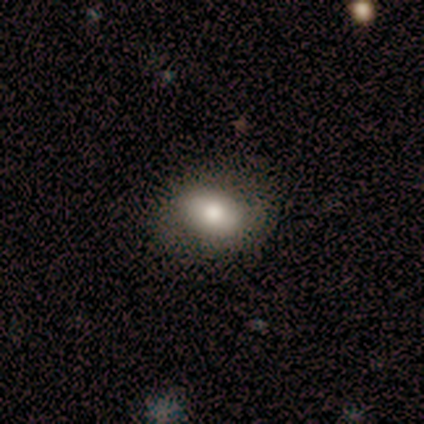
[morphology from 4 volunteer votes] smooth_or_featured: smooth (p=0.50) [alt: featured or disk p=0.25]
how_rounded: round (p=0.50) [tied with: in between p=0.50]
merging: none (p=1.00)